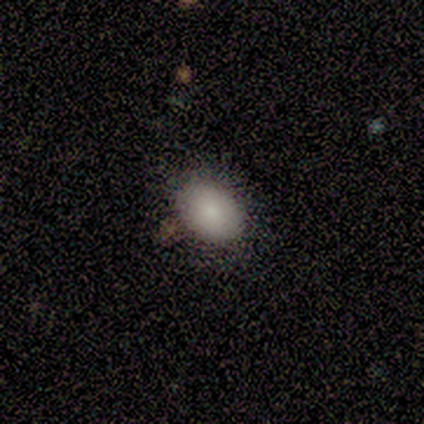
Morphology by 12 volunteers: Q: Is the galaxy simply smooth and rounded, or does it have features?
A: smooth — 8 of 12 (67%).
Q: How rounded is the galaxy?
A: in between — 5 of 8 (62%).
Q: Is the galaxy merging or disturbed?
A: none — 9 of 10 (90%).